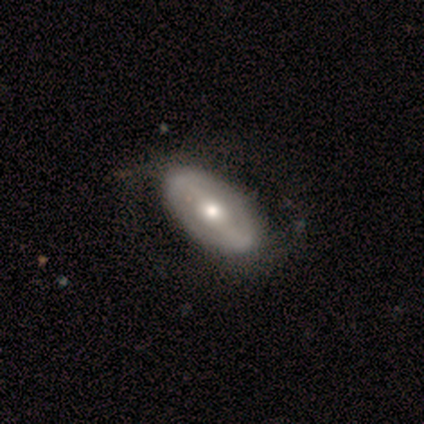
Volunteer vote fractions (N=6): smooth 67%, featured or disk 33%, star or artifact 0%. Down the decision tree: how rounded — in between (100%); merging — none (67%).